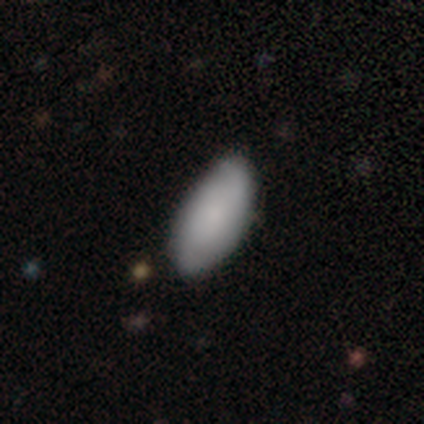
A smooth galaxy with no disk features (76%) that is in between round and cigar-shaped (94%).

Vote fractions:
- Smooth or featured? smooth: 76% / featured or disk: 19% / star or artifact: 5%
- How rounded? in between: 94% / cigar-shaped: 6% / round: 0%
- Merging? none: 69% / minor disturbance: 25% / major disturbance: 5% / merger: 1%